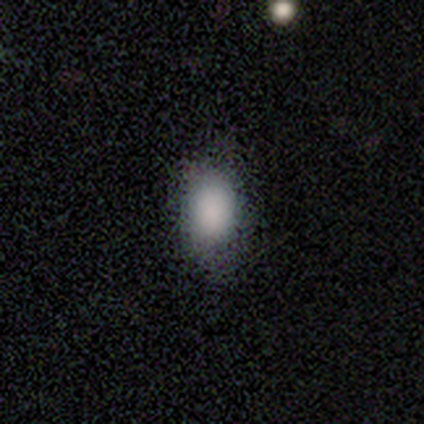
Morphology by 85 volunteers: Q: Smooth or featured?
A: smooth (93%); runner-up: featured or disk (4%)
Q: How rounded?
A: in between (85%); runner-up: round (13%)
Q: Merging?
A: none (84%); runner-up: minor disturbance (13%)